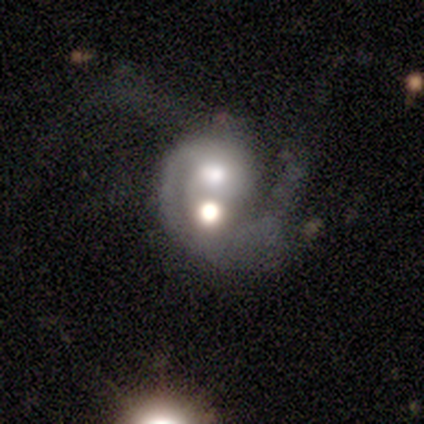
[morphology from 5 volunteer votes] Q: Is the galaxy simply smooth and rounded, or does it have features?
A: featured or disk — 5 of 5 (100%).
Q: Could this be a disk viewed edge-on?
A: no — 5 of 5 (100%).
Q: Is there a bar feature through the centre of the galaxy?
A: no — 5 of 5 (100%).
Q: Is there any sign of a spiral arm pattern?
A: yes — 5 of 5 (100%).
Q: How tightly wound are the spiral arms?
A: tight — 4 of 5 (80%).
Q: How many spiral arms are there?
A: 1 — 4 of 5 (80%).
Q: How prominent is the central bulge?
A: moderate — 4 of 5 (80%).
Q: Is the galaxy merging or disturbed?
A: merger — 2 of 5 (40%).